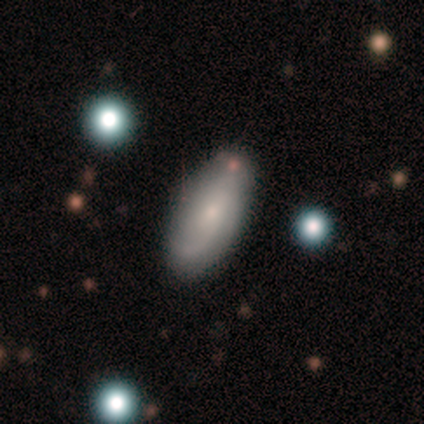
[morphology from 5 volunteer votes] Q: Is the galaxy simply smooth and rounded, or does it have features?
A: smooth — 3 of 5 (60%).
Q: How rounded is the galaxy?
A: in between — 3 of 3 (100%).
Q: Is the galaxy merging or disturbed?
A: none — 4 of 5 (80%).